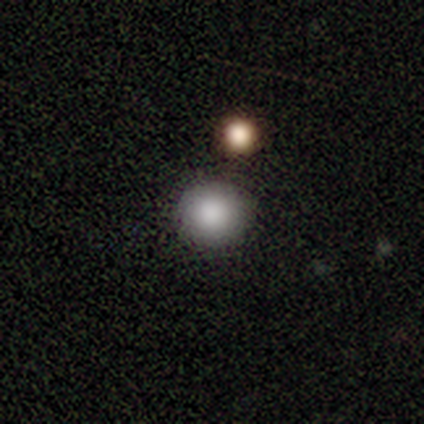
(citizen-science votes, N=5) A smooth galaxy with no disk features (80%) that is round (75%). Merging: none (80%).